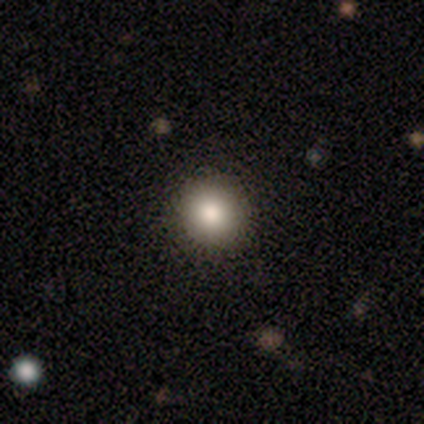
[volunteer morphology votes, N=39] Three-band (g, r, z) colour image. It shows a smooth galaxy with no disk features (85%) that is round (100%). Merging: none (68%).